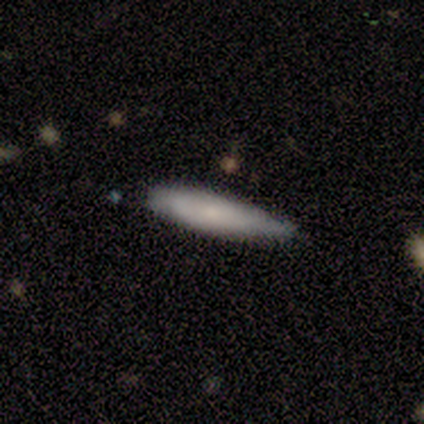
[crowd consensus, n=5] Smooth or featured: smooth — 80% (featured or disk — 20%)
How rounded: cigar-shaped — 100%
Merging: none — 100%